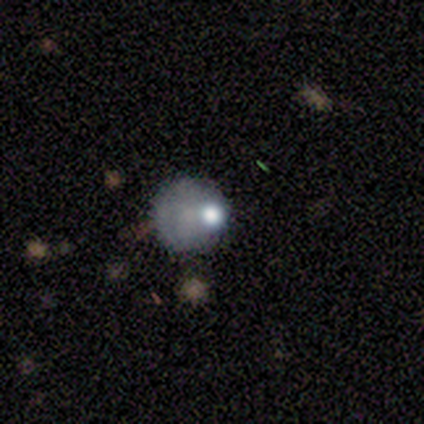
Overall: smooth (50%, tied with star or artifact). How rounded: round (100%). Merging: none (100%).